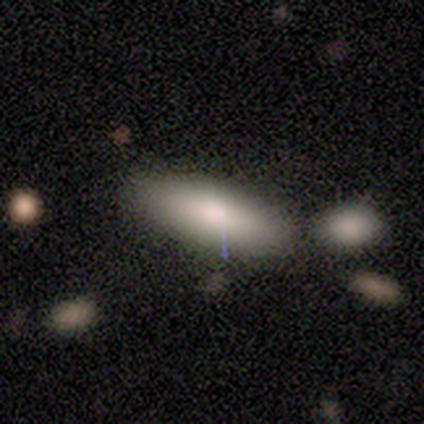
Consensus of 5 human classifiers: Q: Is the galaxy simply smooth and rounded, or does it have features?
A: smooth — 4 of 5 (80%).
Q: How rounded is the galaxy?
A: in between — 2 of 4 (50%, tied with cigar-shaped).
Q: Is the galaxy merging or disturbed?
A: none — 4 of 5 (80%).